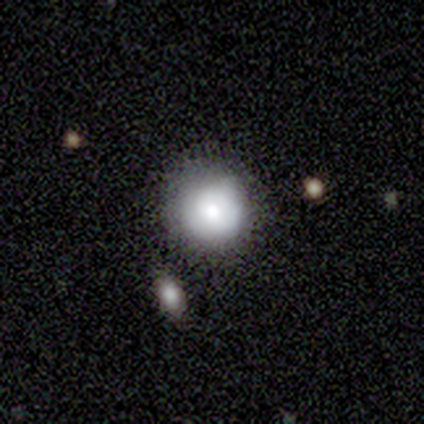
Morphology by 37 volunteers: Volunteers were most divided on "merging": none: 62%, minor disturbance: 26%, merger: 9%, major disturbance: 3%. More confident: how rounded — round (89%); smooth or featured — smooth (73%).